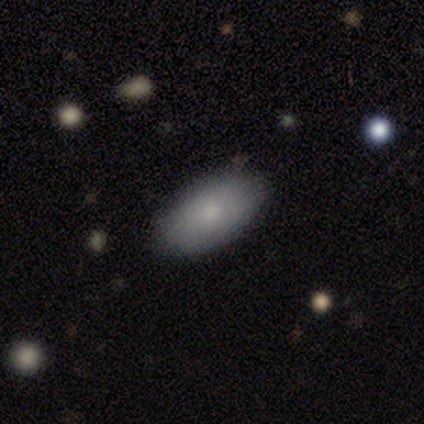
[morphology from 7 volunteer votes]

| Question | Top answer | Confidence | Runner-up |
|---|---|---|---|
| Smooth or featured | smooth | 86% | star or artifact (14%) |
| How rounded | in between | 100% | — |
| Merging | none | 100% | — |